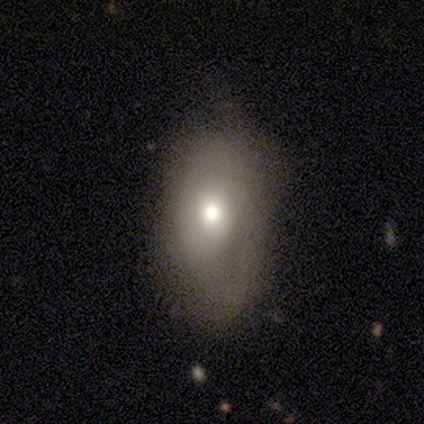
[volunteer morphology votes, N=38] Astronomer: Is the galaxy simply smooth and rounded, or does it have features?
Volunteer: smooth — 74%.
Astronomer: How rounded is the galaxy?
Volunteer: in between — 82%.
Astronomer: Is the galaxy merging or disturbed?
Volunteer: none — 65%.